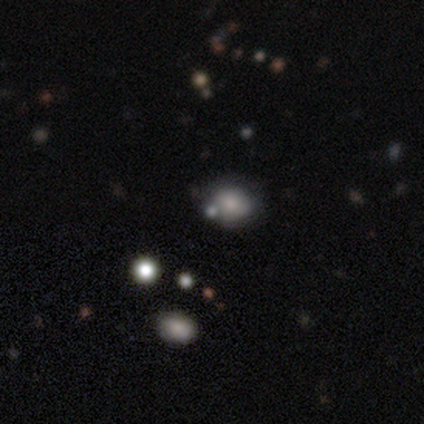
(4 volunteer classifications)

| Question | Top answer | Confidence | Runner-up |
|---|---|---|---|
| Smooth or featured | smooth | 75% | star or artifact (25%) |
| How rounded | in between | 67% | round (33%) |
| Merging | none | 67% | minor disturbance (33%) |